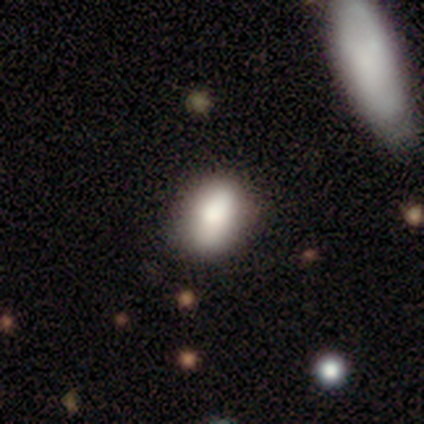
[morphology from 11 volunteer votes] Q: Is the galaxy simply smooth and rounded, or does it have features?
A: smooth — 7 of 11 (64%).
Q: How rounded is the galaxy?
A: in between — 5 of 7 (71%).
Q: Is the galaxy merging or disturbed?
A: none — 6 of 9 (67%).